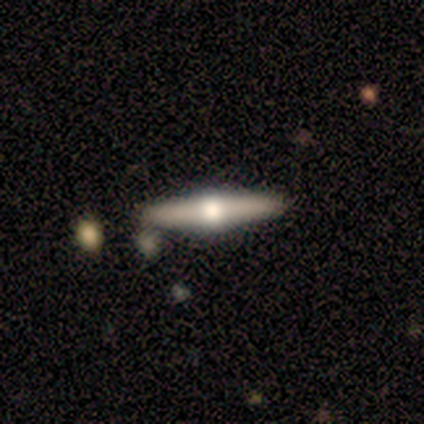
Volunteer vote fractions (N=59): Smooth or featured: featured or disk — 78% (smooth — 12%)
Edge-on disk: yes — 100%
Edge-on bulge: rounded — 100%
Merging: none — 79% (merger — 13%)